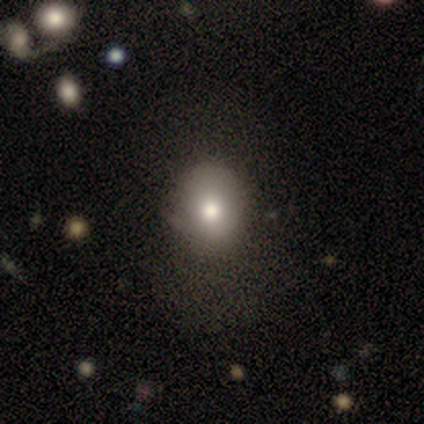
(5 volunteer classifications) This appears to be a smooth galaxy with no disk features (80%) that is round (75%). Merging: none (75%).